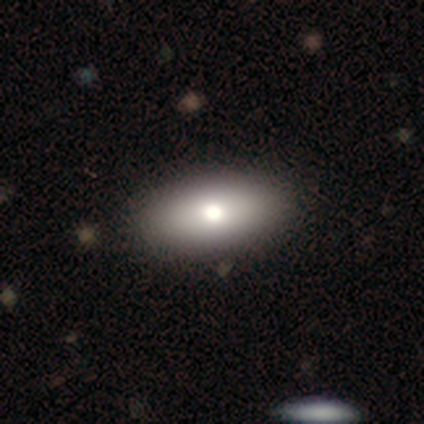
This is likely a featured or disk galaxy (60%). It is clearly not viewed edge-on (100%). Bar: clearly no (100%). Spiral arm pattern: clearly no (100%). Central bulge: likely moderate (67%). Merging: clearly none (100%).